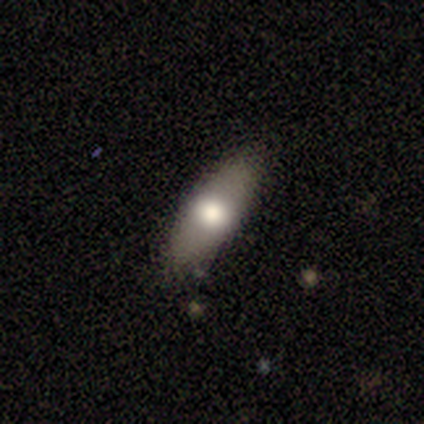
A smooth galaxy with no disk features (50%) that is in between round and cigar-shaped (100%).

Vote fractions:
- Smooth or featured? smooth: 50% / featured or disk: 25% / star or artifact: 25%
- How rounded? in between: 100% / round: 0% / cigar-shaped: 0%
- Merging? none: 100% / minor disturbance: 0% / major disturbance: 0% / merger: 0%